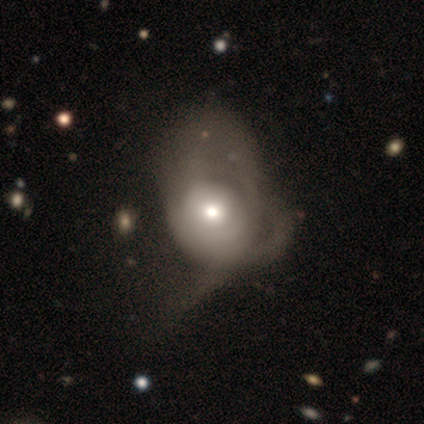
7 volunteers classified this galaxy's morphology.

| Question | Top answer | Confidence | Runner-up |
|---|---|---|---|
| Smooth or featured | featured or disk | 57% | smooth (43%) |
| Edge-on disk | no | 100% | — |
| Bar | no | 75% | strong (25%) |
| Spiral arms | no | 75% | yes (25%) |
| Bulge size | moderate | 50% | large (25%) |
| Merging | major disturbance | 71% | minor disturbance (14%) |